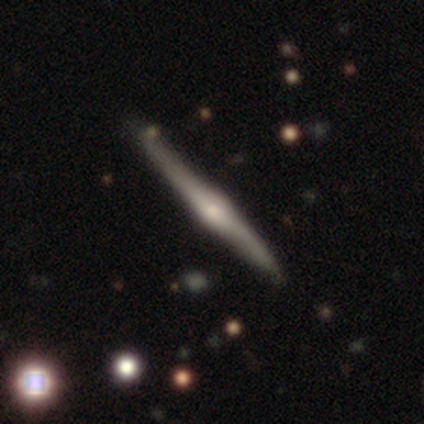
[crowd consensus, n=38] A featured or disk galaxy (68%) viewed edge-on (100%) with a rounded central bulge (96%). Merging: none (94%).